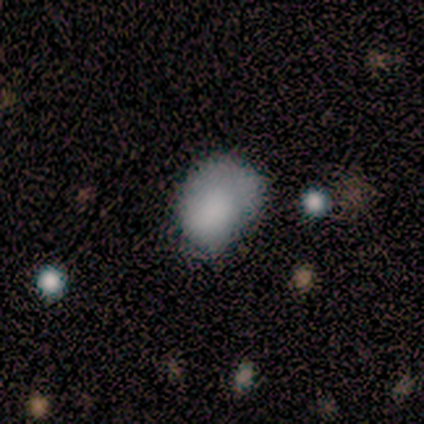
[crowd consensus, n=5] A smooth galaxy with no disk features (80%) that is round (50%, tied with in between). Merging: minor disturbance (60%).